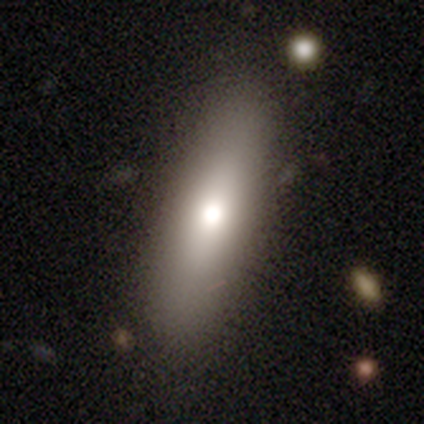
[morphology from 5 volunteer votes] Smooth or featured? smooth (60%)
How rounded? cigar-shaped (67%)
Merging? none (60%)